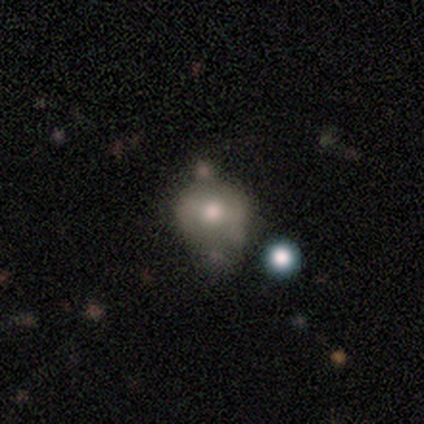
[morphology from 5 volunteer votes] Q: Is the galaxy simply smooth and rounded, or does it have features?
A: featured or disk — 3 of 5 (60%).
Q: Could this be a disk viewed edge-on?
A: no — 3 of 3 (100%).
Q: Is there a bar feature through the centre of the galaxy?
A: strong — 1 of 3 (33%, tied with weak and no).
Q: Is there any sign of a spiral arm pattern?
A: no — 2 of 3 (67%).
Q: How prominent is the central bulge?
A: moderate — 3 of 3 (100%).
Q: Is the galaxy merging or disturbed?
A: none — 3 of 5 (60%).